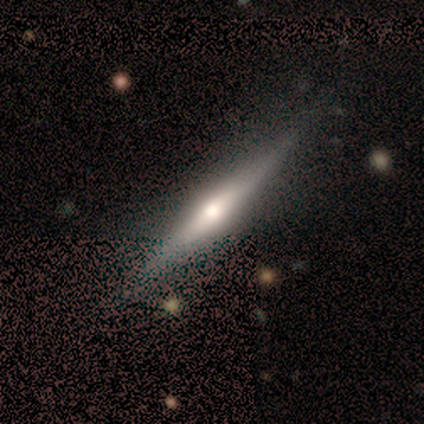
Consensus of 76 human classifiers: featured or disk 72%, smooth 22%, star or artifact 5%. Down the decision tree: edge-on disk — yes (100%); edge-on bulge — rounded (87%); merging — none (40%).